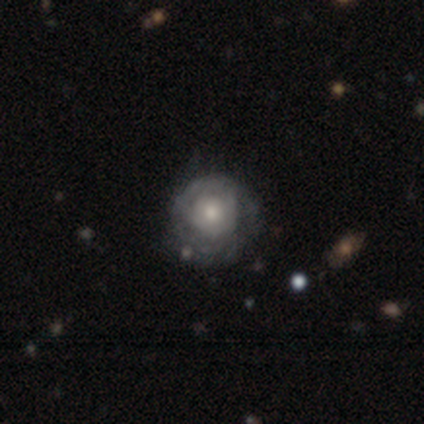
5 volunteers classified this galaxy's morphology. Overall: smooth (60%; featured or disk 40%). How rounded: round (100%). Merging: none (80%).